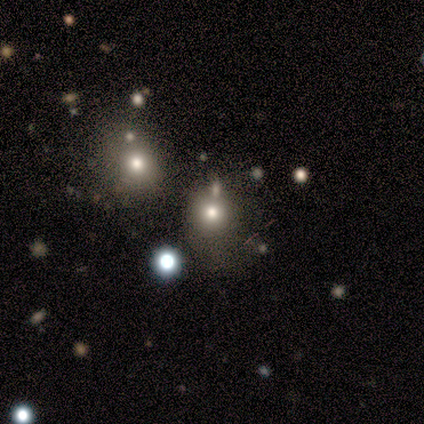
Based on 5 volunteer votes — This is clearly a smooth galaxy (80%). How rounded: clearly round (100%). Merging: likely none (60%).